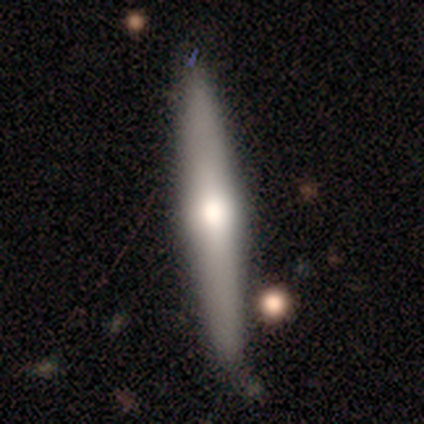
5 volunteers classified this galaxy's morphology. smooth 60%, featured or disk 40%, star or artifact 0%. Down the decision tree: how rounded — cigar-shaped (100%); merging — none (100%).